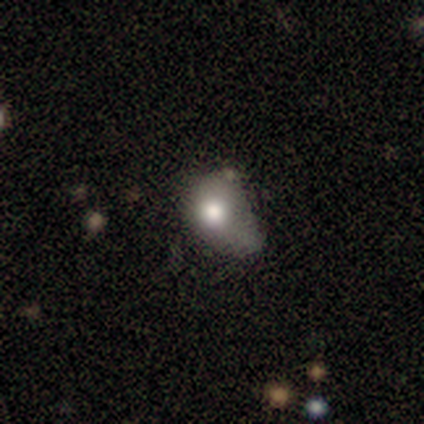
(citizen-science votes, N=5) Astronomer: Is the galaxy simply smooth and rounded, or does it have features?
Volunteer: featured or disk — 80%.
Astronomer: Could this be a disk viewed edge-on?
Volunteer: no — 100%.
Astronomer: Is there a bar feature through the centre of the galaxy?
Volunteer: no — 75%.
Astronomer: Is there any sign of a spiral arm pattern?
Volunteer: no — 100%.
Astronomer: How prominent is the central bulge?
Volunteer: moderate — 100%.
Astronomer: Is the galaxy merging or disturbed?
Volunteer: none — 40%, tied with minor disturbance at 40%.